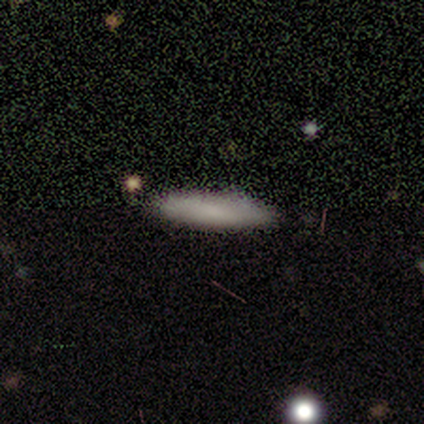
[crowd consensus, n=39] Smooth or featured? 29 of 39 (74%) said smooth. How rounded? 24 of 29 (83%) said cigar-shaped. Merging? 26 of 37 (70%) said none.